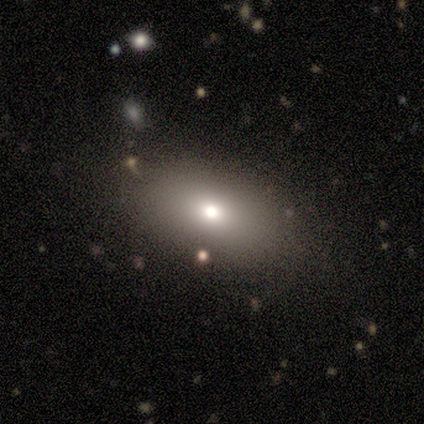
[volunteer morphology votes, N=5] Smooth or featured?
  - featured or disk: 60% *
  - smooth: 40%
  - star or artifact: 0%
Edge-on disk?
  - yes: 67% *
  - no: 33%
Edge-on bulge?
  - rounded: 100% *
  - boxy: 0%
  - none: 0%
Merging?
  - none: 100% *
  - minor disturbance: 0%
  - major disturbance: 0%
  - merger: 0%